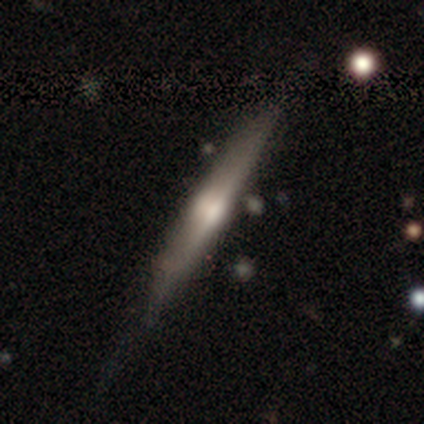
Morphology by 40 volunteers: smooth_or_featured: featured or disk (p=0.82) [alt: smooth p=0.15]
disk_edge_on: yes (p=1.00)
edge_on_bulge: rounded (p=0.76) [alt: none p=0.18]
merging: none (p=0.67) [alt: minor disturbance p=0.23]